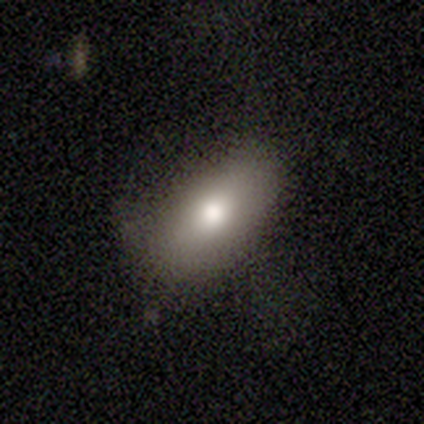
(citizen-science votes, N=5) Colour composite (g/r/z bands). It shows a smooth galaxy with no disk features (60%) that is in between round and cigar-shaped (100%). Merging: none (100%).